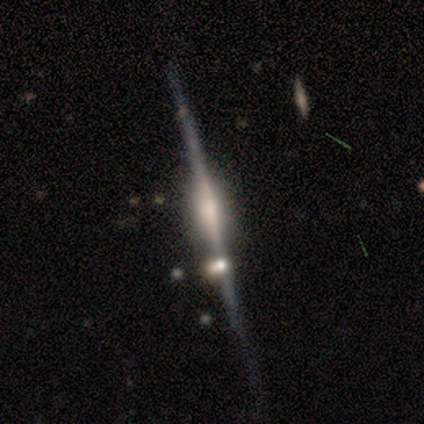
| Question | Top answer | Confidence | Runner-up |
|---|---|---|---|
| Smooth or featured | featured or disk | 100% | — |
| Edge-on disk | yes | 100% | — |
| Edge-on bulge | rounded | 60% | boxy (40%) |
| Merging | none | 80% | minor disturbance (20%) |